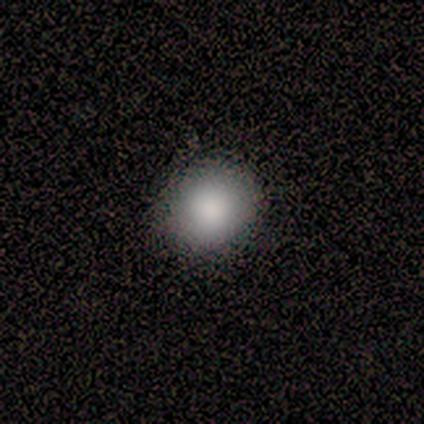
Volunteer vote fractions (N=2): Overall: smooth (100%). How rounded: round (100%). Merging: none (100%).